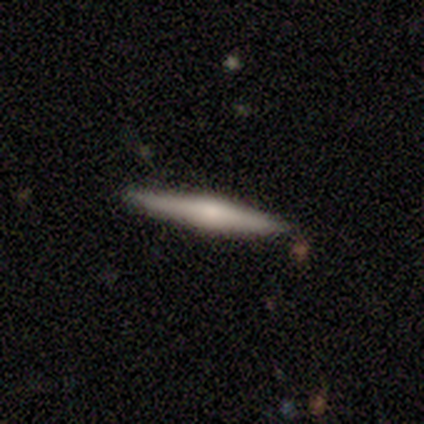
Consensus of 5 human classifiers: A featured or disk galaxy (80%) viewed edge-on (100%) with a rounded central bulge (75%).

Vote fractions:
- Smooth or featured? featured or disk: 80% / smooth: 20% / star or artifact: 0%
- Edge-on disk? yes: 100% / no: 0%
- Edge-on bulge? rounded: 75% / none: 25% / boxy: 0%
- Merging? none: 60% / minor disturbance: 40% / major disturbance: 0% / merger: 0%